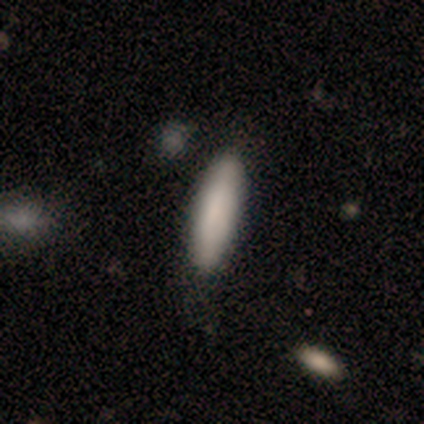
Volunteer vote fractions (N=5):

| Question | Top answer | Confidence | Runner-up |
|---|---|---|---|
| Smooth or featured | smooth | 100% | — |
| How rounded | cigar-shaped | 80% | in between (20%) |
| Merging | none | 100% | — |